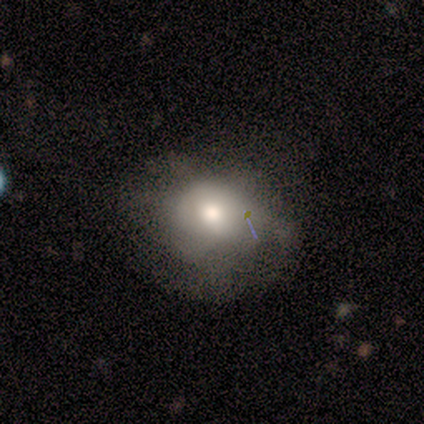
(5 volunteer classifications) This is clearly a smooth galaxy (80%). How rounded: likely round (75%). Merging: likely none (75%).